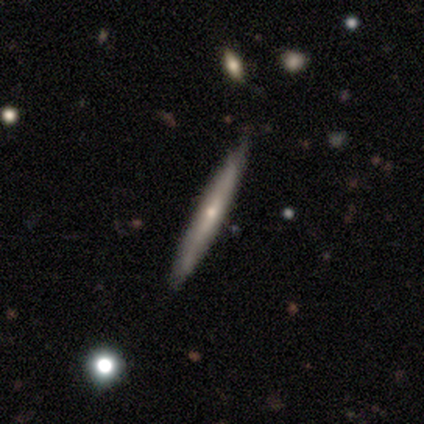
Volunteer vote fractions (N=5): Smooth or featured? 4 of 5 (80%) said featured or disk. Edge-on disk? 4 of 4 (100%) said yes. Edge-on bulge? 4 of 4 (100%) said rounded. Merging? 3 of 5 (60%) said none.